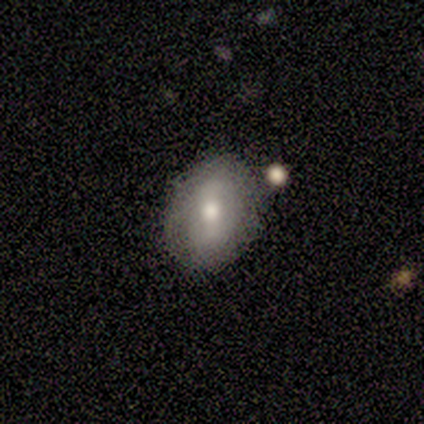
This is likely a smooth galaxy (60%). How rounded: likely in between (67%). Merging: likely none (60%).